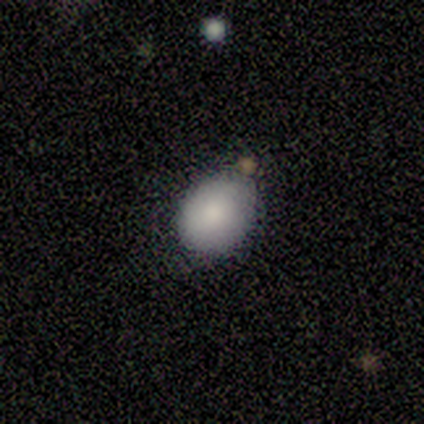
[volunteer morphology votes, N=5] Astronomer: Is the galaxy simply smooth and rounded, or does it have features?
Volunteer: smooth — 80%.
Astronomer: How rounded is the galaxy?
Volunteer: round — 75%.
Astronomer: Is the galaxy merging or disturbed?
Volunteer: none — 80%.